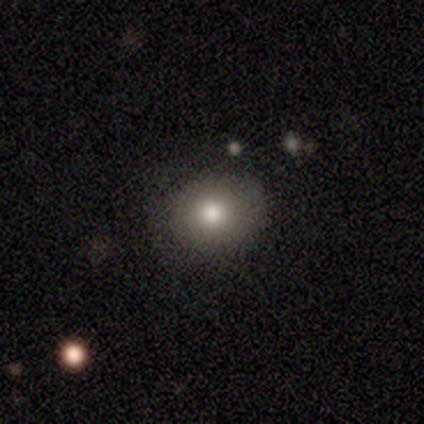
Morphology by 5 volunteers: Q: Smooth or featured?
A: smooth (80%); runner-up: featured or disk (20%)
Q: How rounded?
A: round (50%); tied with: in between (50%)
Q: Merging?
A: none (100%)